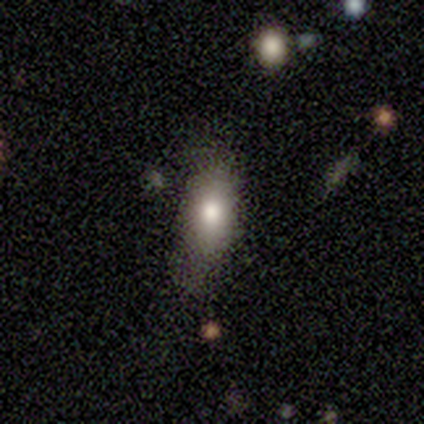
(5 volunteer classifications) Smooth or featured? smooth (80%)
How rounded? round (75%)
Merging? none (75%)